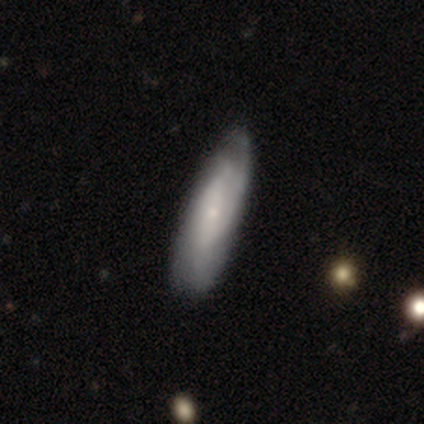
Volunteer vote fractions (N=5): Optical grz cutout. It shows a featured or disk galaxy (60%) with a weak bar (50%, tied with no), 2 (100%) tight (50%, tied with medium) spiral arms (100%) and a small central bulge (100%). Merging: none (80%).